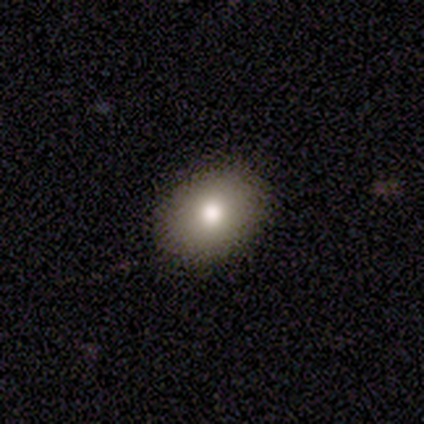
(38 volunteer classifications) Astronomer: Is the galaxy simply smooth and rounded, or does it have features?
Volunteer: smooth — 71%.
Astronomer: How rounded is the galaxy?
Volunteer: in between — 74%.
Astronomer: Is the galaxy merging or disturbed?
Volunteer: none — 97%.